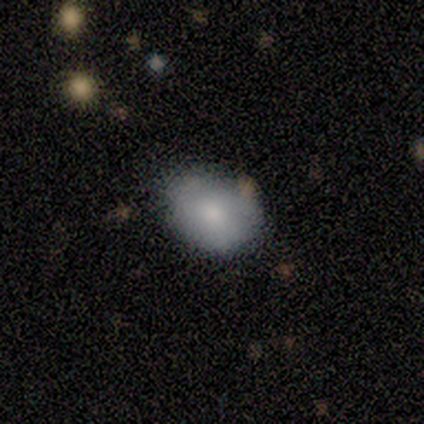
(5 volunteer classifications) Morphology: type=smooth (80%); roundness=in between (75%); merging=none (80%).